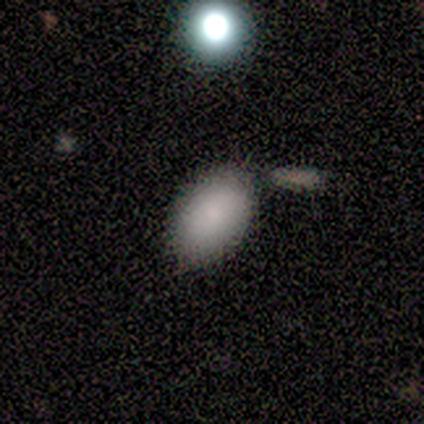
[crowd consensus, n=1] Consensus on every question: smooth or featured — star or artifact (100%).